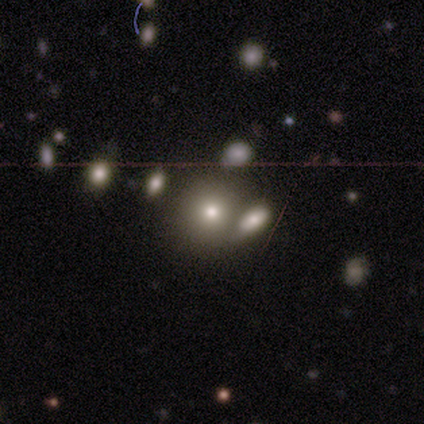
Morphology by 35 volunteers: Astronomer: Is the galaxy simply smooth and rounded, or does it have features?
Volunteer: smooth — 74%.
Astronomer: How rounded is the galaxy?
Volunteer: round — 85%.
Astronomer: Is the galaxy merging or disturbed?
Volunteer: merger — 55%.